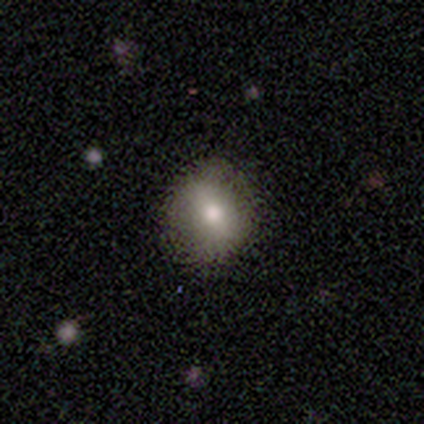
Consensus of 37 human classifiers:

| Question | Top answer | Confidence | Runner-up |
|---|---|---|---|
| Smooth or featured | smooth | 76% | featured or disk (16%) |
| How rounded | round | 82% | in between (18%) |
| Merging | none | 91% | minor disturbance (6%) |